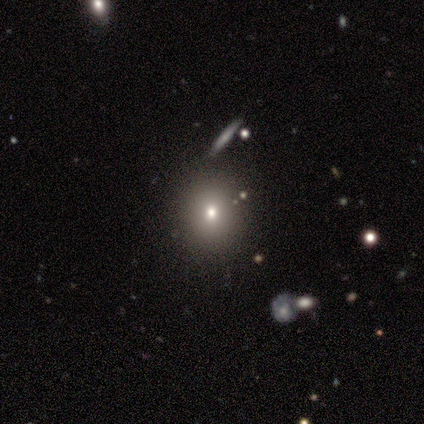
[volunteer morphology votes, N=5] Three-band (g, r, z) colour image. It shows a smooth galaxy with no disk features (80%) that is round (100%). Merging: none (100%).